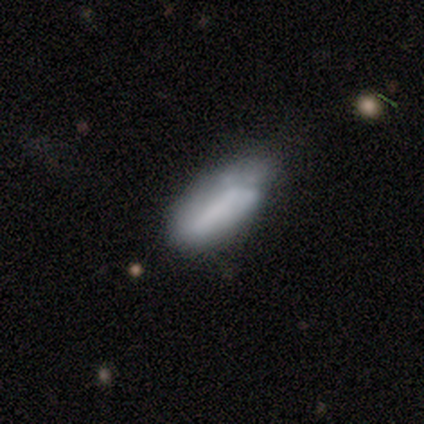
Smooth or featured?
  - smooth: 50% *
  - star or artifact: 33%
  - featured or disk: 17%
How rounded?
  - in between: 67% *
  - cigar-shaped: 33%
  - round: 0%
Merging?
  - minor disturbance: 75% *
  - none: 25%
  - major disturbance: 0%
  - merger: 0%